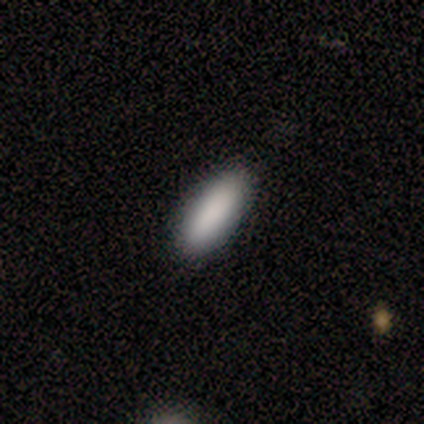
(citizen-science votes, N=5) A smooth galaxy with no disk features (80%) that is in between round and cigar-shaped (75%).

Vote fractions:
- Smooth or featured? smooth: 80% / star or artifact: 20% / featured or disk: 0%
- How rounded? in between: 75% / cigar-shaped: 25% / round: 0%
- Merging? none: 100% / minor disturbance: 0% / major disturbance: 0% / merger: 0%